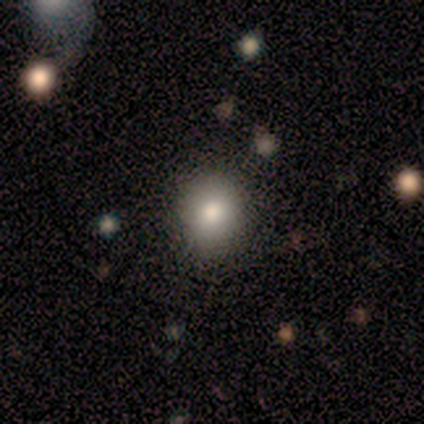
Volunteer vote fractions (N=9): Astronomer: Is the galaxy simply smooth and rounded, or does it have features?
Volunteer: smooth — 78%.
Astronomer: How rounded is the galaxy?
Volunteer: round — 57% (runner-up: in between, 43%).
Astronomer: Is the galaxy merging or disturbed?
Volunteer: none — 88%.